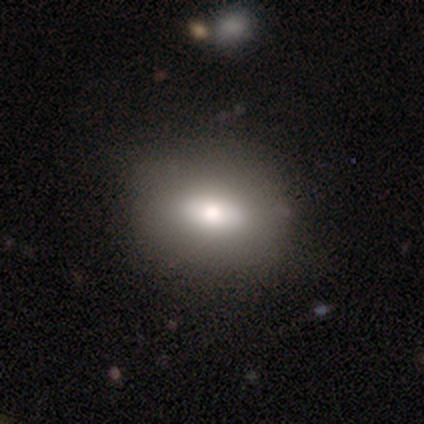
smooth-or-featured: smooth: 70% | featured or disk: 27% | star or artifact: 3%
  how-rounded: in between: 67% | round: 31% | cigar-shaped: 2%
  merging: none: 44% | minor disturbance: 5% | merger: 5% | major disturbance: 1%